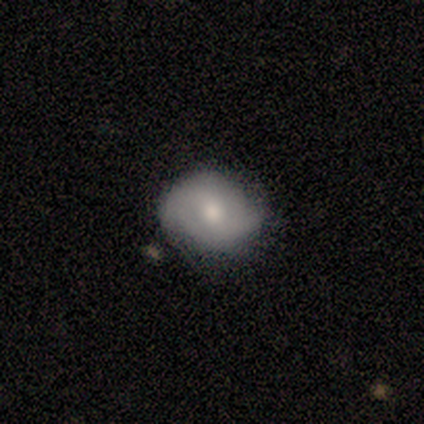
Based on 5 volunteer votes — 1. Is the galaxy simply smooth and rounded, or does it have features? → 60% smooth, 20% featured or disk, 20% star or artifact.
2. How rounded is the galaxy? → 67% round, 33% in between, 0% cigar-shaped.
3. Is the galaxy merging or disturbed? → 75% none, 25% minor disturbance, 0% major disturbance, 0% merger.